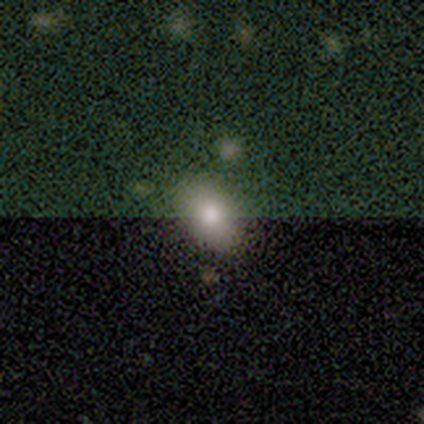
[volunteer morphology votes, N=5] smooth_or_featured: smooth (p=0.40) [tied with: star or artifact p=0.40]
how_rounded: in between (p=1.00)
merging: none (p=1.00)